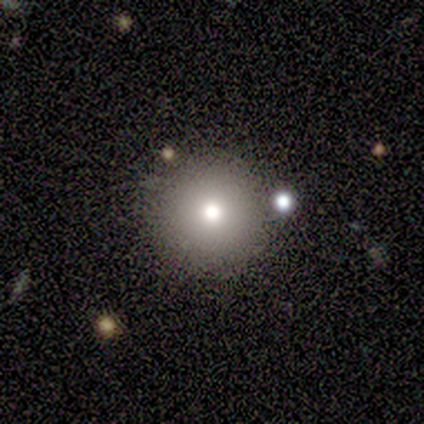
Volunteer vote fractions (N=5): A smooth galaxy with no disk features (60%) that is round (100%).

Vote fractions:
- Smooth or featured? smooth: 60% / featured or disk: 40% / star or artifact: 0%
- How rounded? round: 100% / in between: 0% / cigar-shaped: 0%
- Merging? none: 100% / minor disturbance: 0% / major disturbance: 0% / merger: 0%